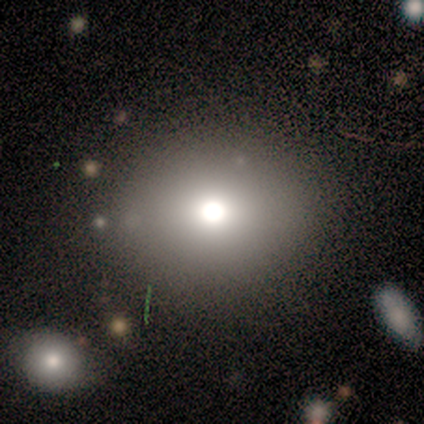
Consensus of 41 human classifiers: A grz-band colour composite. It shows a smooth galaxy with no disk features (71%) that is in between round and cigar-shaped (52%). Merging: none (76%).